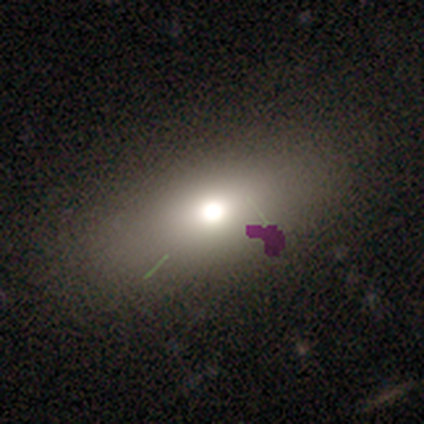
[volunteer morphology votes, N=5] Smooth or featured? 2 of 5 (40%, tied with featured or disk) said smooth. How rounded? 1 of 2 (50%, tied with in between) said round. Merging? 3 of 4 (75%) said none.